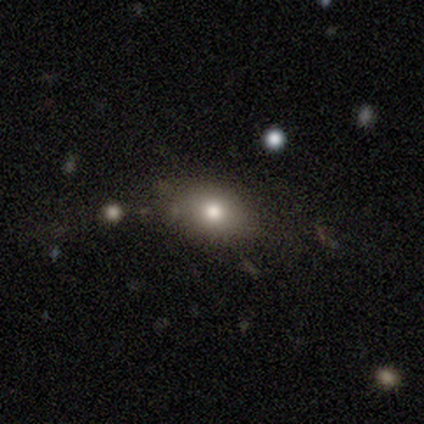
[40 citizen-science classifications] smooth-or-featured: smooth: 72% | featured or disk: 15% | star or artifact: 12%
  how-rounded: in between: 79% | round: 21% | cigar-shaped: 0%
  merging: none: 83% | minor disturbance: 11% | major disturbance: 6% | merger: 0%